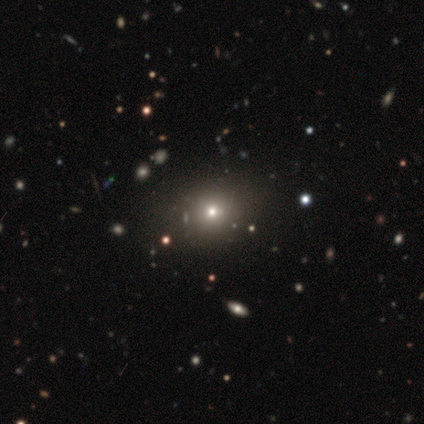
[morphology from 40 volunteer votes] type=smooth (45%, tied with star or artifact); roundness=round (78%); merging=none (95%).